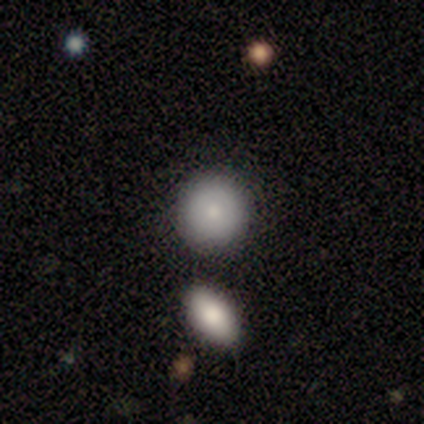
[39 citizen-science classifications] Q: Smooth or featured?
A: smooth (82%); runner-up: featured or disk (13%)
Q: How rounded?
A: round (97%); runner-up: in between (3%)
Q: Merging?
A: none (51%); runner-up: merger (22%)